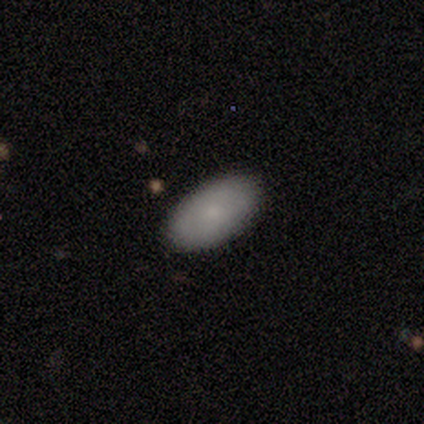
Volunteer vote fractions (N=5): Consensus on every question: smooth or featured — smooth (100%); how rounded — in between (100%); merging — none (100%).